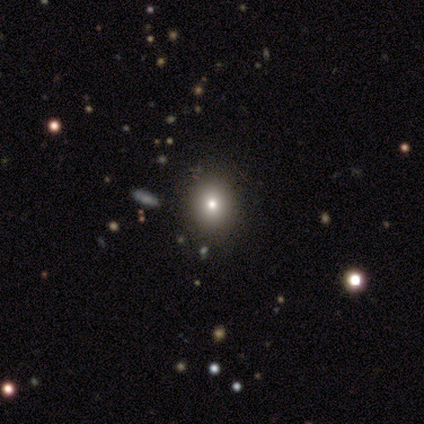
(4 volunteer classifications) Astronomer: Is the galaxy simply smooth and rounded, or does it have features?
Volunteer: smooth — 75%.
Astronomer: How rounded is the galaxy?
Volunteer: round — 100%.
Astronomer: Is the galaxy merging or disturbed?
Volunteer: none — 67%.